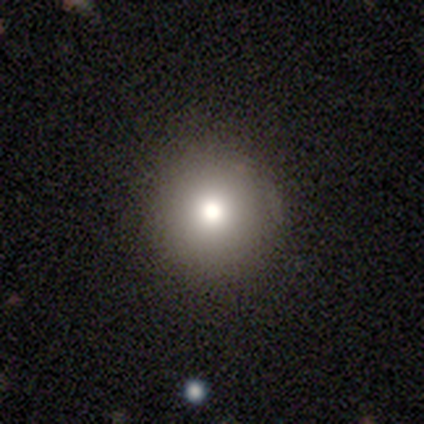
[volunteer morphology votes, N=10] Volunteers were most divided on "smooth or featured": smooth: 70%, featured or disk: 20%, star or artifact: 10%. More confident: merging — none (89%); how rounded — round (86%).